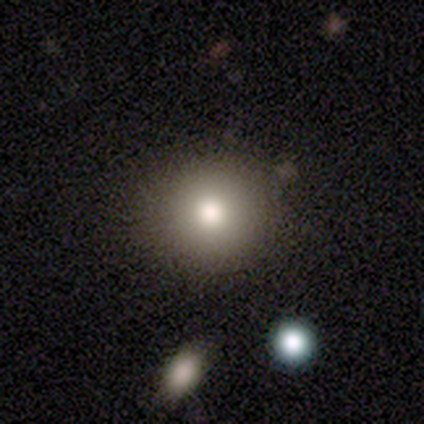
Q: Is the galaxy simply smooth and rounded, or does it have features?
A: smooth — 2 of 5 (40%, tied with featured or disk).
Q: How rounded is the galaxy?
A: round — 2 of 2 (100%).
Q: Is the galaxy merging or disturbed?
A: none — 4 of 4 (100%).